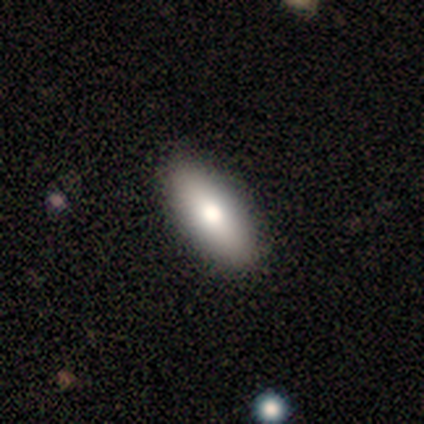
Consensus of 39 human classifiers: Q: Smooth or featured?
A: smooth (82%); runner-up: featured or disk (15%)
Q: How rounded?
A: in between (81%); runner-up: cigar-shaped (16%)
Q: Merging?
A: none (74%); runner-up: minor disturbance (3%)